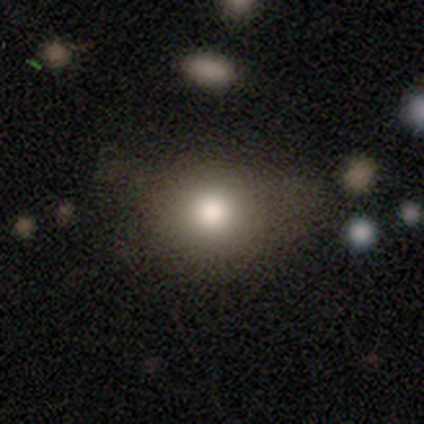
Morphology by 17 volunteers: type=smooth (88%); roundness=round (53%); merging=none (56%).